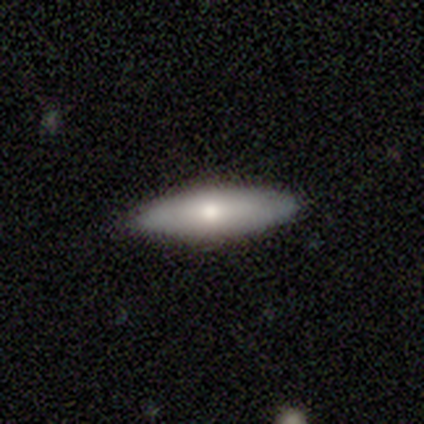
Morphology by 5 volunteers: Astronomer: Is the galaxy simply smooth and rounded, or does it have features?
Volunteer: smooth — 60% (runner-up: featured or disk, 40%).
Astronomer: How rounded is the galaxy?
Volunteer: cigar-shaped — 67%.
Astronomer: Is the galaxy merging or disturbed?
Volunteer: none — 80%.